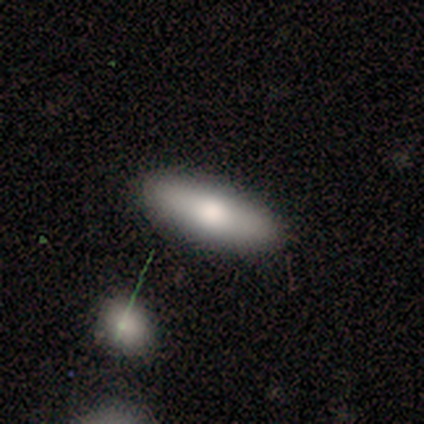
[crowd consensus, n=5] Smooth or featured? smooth (60%)
How rounded? in between (67%)
Merging? none (100%)